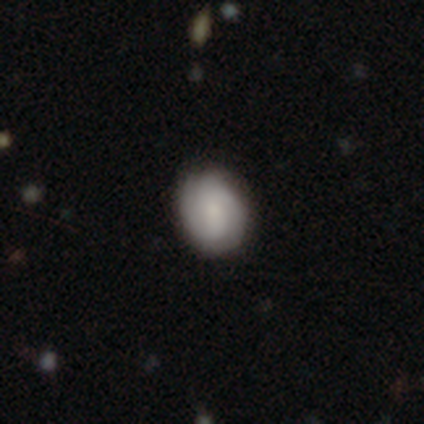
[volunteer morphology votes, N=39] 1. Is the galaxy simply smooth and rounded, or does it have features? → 54% smooth, 44% featured or disk, 3% star or artifact.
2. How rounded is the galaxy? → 52% in between, 43% round, 5% cigar-shaped.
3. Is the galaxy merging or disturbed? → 84% none, 13% minor disturbance, 3% major disturbance, 0% merger.